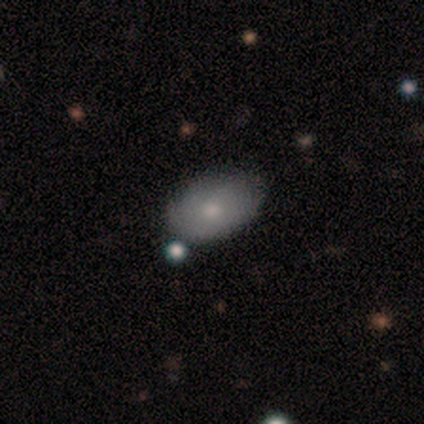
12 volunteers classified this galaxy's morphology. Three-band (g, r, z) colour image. It shows a smooth galaxy with no disk features (67%) that is in between round and cigar-shaped (100%). Merging: none (60%).